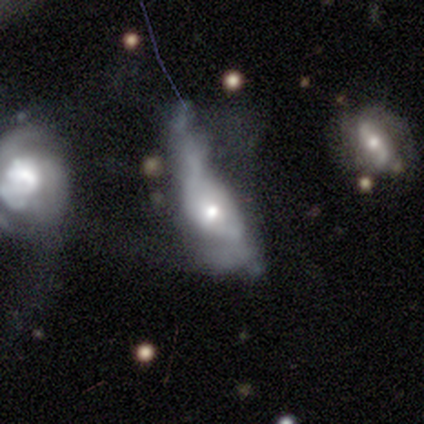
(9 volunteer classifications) Smooth or featured? 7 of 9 (78%) said featured or disk. Edge-on disk? 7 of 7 (100%) said no. Bar? 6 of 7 (86%) said no. Spiral arms? 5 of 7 (71%) said no. Bulge size? 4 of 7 (57%) said moderate. Merging? 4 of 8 (50%) said major disturbance.